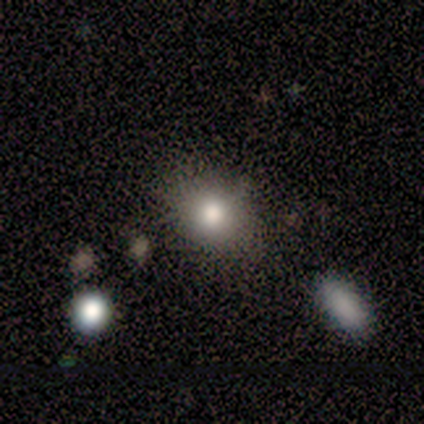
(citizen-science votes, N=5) Smooth or featured: smooth — 80% (star or artifact — 20%)
How rounded: round — 100%
Merging: none — 100%